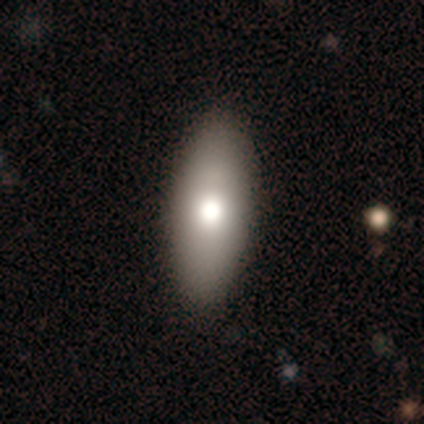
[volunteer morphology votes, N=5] This is likely a smooth galaxy (60%). How rounded: clearly in between (100%). Merging: clearly none (80%).